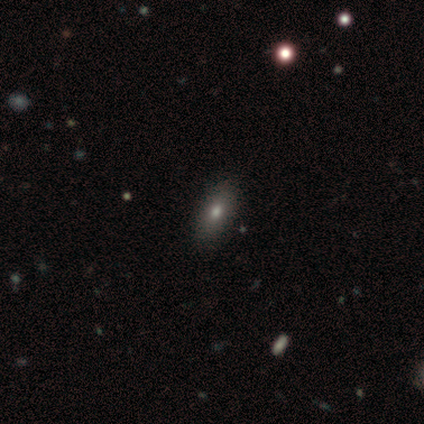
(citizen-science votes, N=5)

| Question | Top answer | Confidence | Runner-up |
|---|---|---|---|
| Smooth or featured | smooth | 40% | tied: star or artifact (40%) |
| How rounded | in between | 100% | — |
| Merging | none | 100% | — |